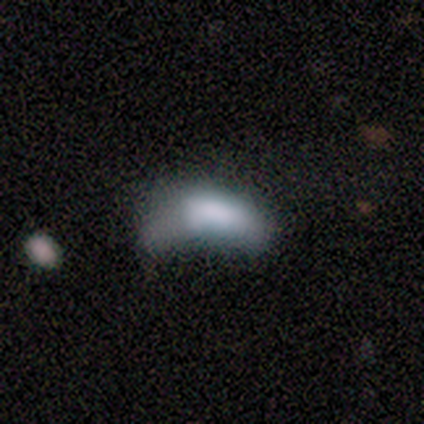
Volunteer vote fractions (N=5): Q: Smooth or featured?
A: smooth (60%); runner-up: featured or disk (20%)
Q: How rounded?
A: in between (100%)
Q: Merging?
A: major disturbance (75%); runner-up: minor disturbance (25%)